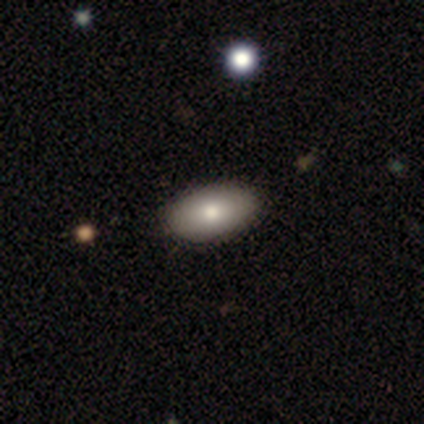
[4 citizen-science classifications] A smooth galaxy with no disk features (100%) that is in between round and cigar-shaped (100%). Merging: none (100%).